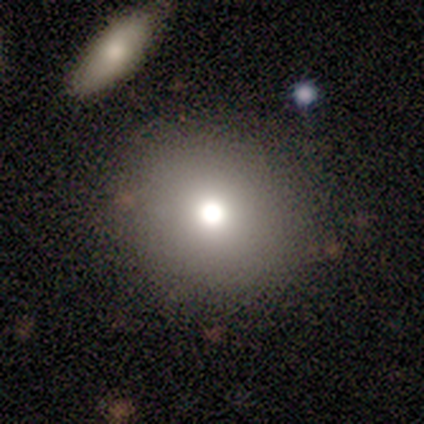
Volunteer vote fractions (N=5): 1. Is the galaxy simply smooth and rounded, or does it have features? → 60% smooth, 40% star or artifact, 0% featured or disk.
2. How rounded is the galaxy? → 100% round, 0% in between, 0% cigar-shaped.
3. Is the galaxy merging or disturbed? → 100% none, 0% minor disturbance, 0% major disturbance, 0% merger.